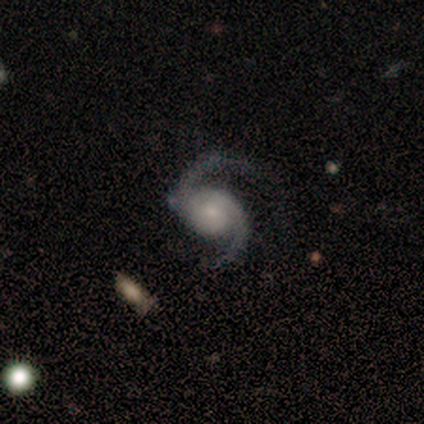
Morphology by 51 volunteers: Smooth or featured?
  - featured or disk: 96% *
  - star or artifact: 4%
  - smooth: 0%
Edge-on disk?
  - no: 98% *
  - yes: 2%
Bar?
  - no: 79% *
  - weak: 17%
  - strong: 4%
Spiral arms?
  - yes: 100% *
  - no: 0%
Spiral winding?
  - medium: 56% *
  - loose: 38%
  - tight: 6%
Spiral arm count?
  - 2: 98% *
  - can't tell: 2%
  - 1: 0%
  - 3: 0%
  - 4: 0%
  - more than 4: 0%
Bulge size?
  - small: 54% *
  - moderate: 35%
  - large: 6%
  - none: 4%
  - dominant: 0%
Merging?
  - none: 76% *
  - minor disturbance: 14%
  - major disturbance: 8%
  - merger: 2%